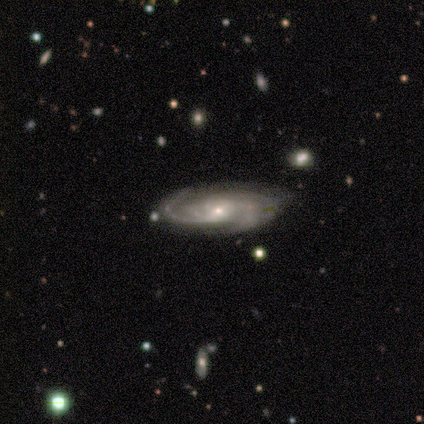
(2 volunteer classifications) Smooth or featured? 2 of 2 (100%) said featured or disk. Edge-on disk? 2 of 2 (100%) said no. Bar? 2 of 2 (100%) said no. Spiral arms? 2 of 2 (100%) said yes. Spiral winding? 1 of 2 (50%, tied with medium) said tight. Spiral arm count? 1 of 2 (50%, tied with 4) said 2. Bulge size? 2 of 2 (100%) said moderate. Merging? 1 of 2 (50%, tied with merger) said none.